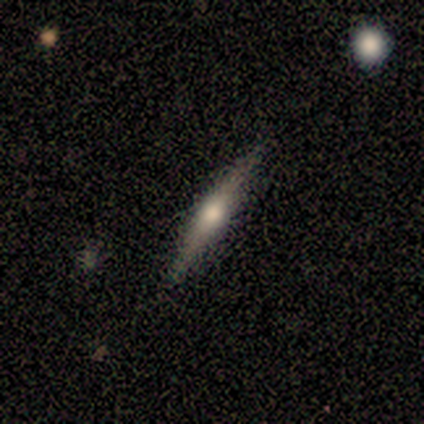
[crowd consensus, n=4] Volunteers were most divided on "merging": none: 75%, major disturbance: 25%, minor disturbance: 0%, merger: 0%. More confident: smooth or featured — featured or disk (100%); edge-on disk — yes (100%); edge-on bulge — rounded (100%).